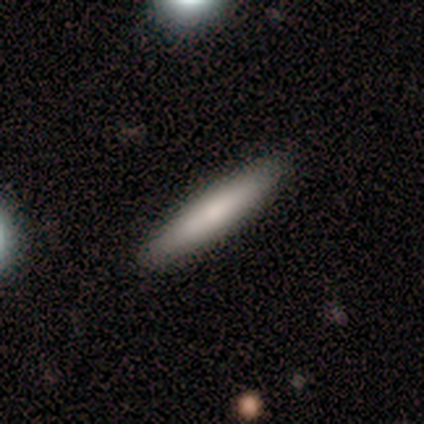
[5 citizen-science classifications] Overall: smooth (80%). How rounded: cigar-shaped (100%). Merging: none (100%).